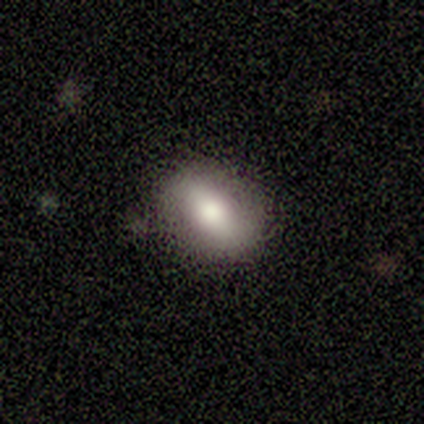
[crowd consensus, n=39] Q: Smooth or featured?
A: smooth (62%); runner-up: featured or disk (36%)
Q: How rounded?
A: in between (67%); runner-up: round (25%)
Q: Merging?
A: none (95%); runner-up: minor disturbance (5%)